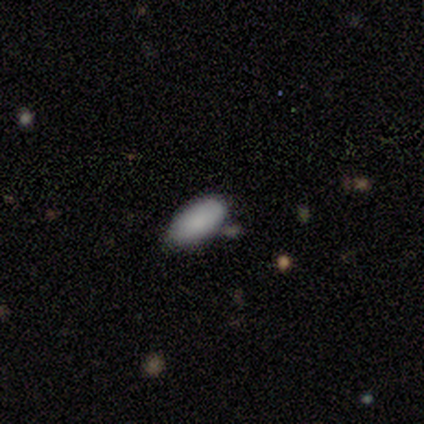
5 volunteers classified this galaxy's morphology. A smooth galaxy with no disk features (100%) that is in between round and cigar-shaped (100%). Merging: none (60%).